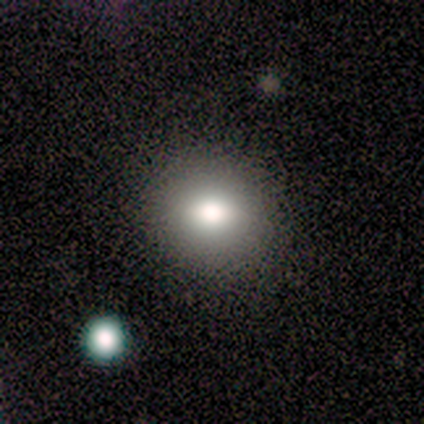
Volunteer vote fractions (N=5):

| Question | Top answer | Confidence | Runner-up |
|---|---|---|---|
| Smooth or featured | smooth | 80% | featured or disk (20%) |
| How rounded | round | 100% | — |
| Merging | none | 100% | — |